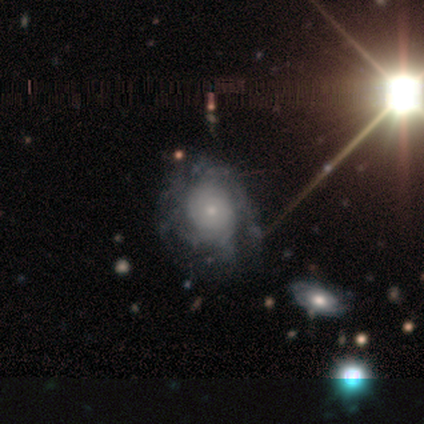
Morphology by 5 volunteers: Smooth or featured? featured or disk (80%)
Edge-on disk? no (100%)
Bar? no (100%)
Spiral arms? yes (75%)
Spiral winding? tight (67%)
Spiral arm count? can't tell (100%)
Bulge size? small (100%)
Merging? none (50%)